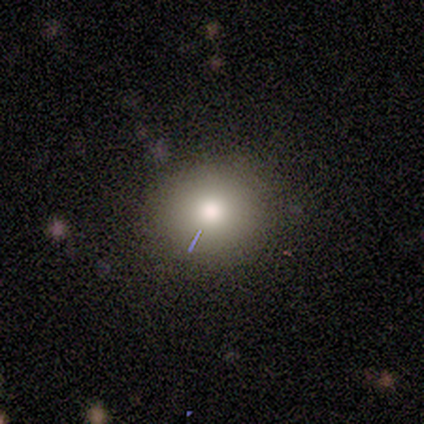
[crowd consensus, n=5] Q: Smooth or featured?
A: smooth (80%); runner-up: featured or disk (20%)
Q: How rounded?
A: round (75%); runner-up: in between (25%)
Q: Merging?
A: none (100%)